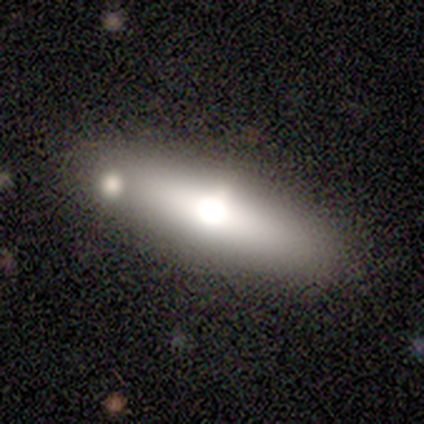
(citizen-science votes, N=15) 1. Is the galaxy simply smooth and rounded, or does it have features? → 60% featured or disk, 40% smooth, 0% star or artifact.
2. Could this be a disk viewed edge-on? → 78% yes, 22% no.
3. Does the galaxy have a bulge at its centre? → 100% rounded, 0% boxy, 0% none.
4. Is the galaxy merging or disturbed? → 87% none, 7% minor disturbance, 7% merger, 0% major disturbance.